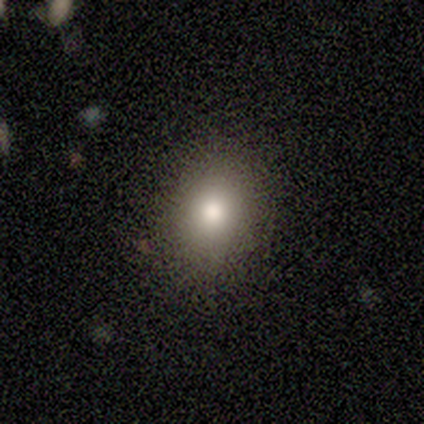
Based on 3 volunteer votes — A smooth galaxy with no disk features (33%, tied with featured or disk and star or artifact) that is round (100%).

Vote fractions:
- Smooth or featured? smooth: 33% (tied) / featured or disk: 33% (tied) / star or artifact: 33% (tied)
- How rounded? round: 100% / in between: 0% / cigar-shaped: 0%
- Merging? none: 100% / minor disturbance: 0% / major disturbance: 0% / merger: 0%